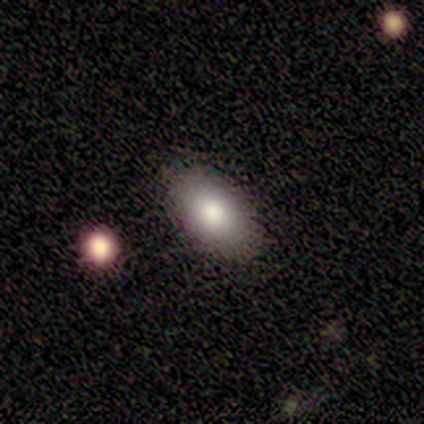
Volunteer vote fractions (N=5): Smooth or featured? 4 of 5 (80%) said smooth. How rounded? 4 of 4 (100%) said in between. Merging? 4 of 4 (100%) said none.